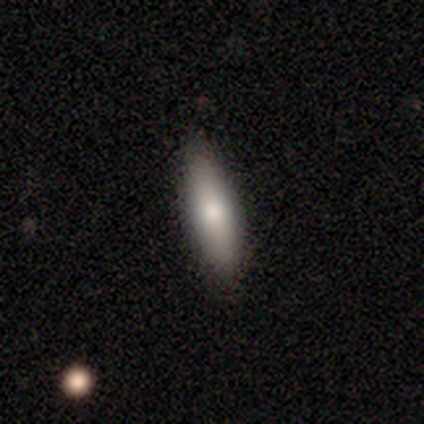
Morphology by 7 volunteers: Volunteers were most divided on "how rounded": cigar-shaped: 57%, in between: 43%, round: 0%. More confident: smooth or featured — smooth (100%); merging — none (100%).